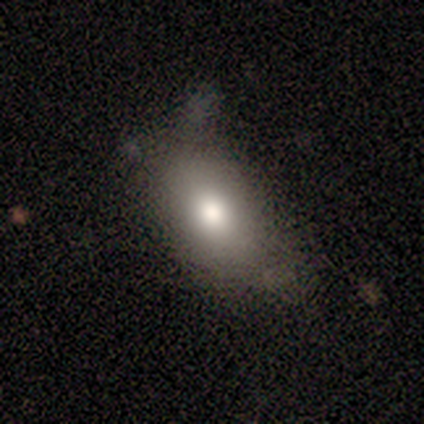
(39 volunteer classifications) Smooth or featured?
  - smooth: 67% *
  - featured or disk: 18%
  - star or artifact: 15%
How rounded?
  - in between: 92% *
  - round: 8%
  - cigar-shaped: 0%
Merging?
  - none: 61% *
  - minor disturbance: 24%
  - major disturbance: 9%
  - merger: 6%